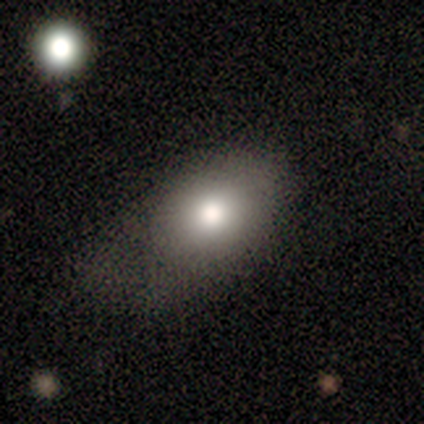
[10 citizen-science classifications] Smooth or featured? smooth (80%)
How rounded? in between (62%)
Merging? none (56%)